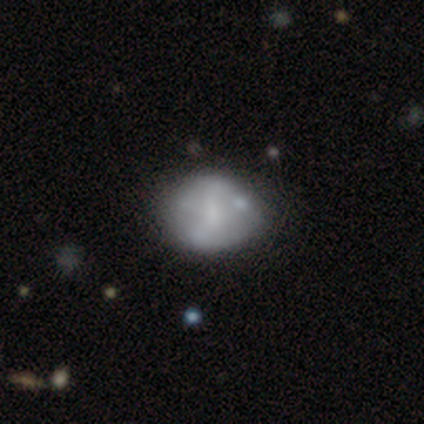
featured or disk 73%, smooth 27%, star or artifact 0%. Down the decision tree: edge-on disk — no (100%); bar — weak (50%, tied with no); spiral arms — no (75%); bulge size — small (50%); merging — none (55%).